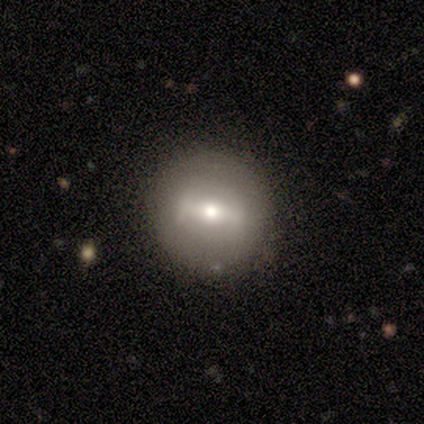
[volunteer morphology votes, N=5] Smooth or featured: smooth — 80% (featured or disk — 20%)
How rounded: round — 50% (tied with in between — 50%)
Merging: none — 80% (minor disturbance — 20%)